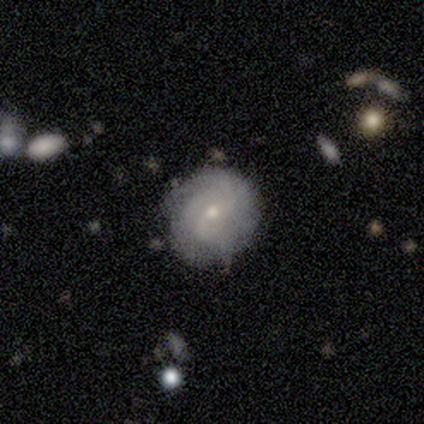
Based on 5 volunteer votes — Smooth or featured?
  - featured or disk: 100% *
  - smooth: 0%
  - star or artifact: 0%
Edge-on disk?
  - no: 100% *
  - yes: 0%
Bar?
  - no: 60% *
  - strong: 20%
  - weak: 20%
Spiral arms?
  - yes: 80% *
  - no: 20%
Spiral winding?
  - tight: 75% *
  - medium: 25%
  - loose: 0%
Spiral arm count?
  - can't tell: 75% *
  - 3: 25%
  - 1: 0%
  - 2: 0%
  - 4: 0%
  - more than 4: 0%
Bulge size?
  - small: 60% *
  - moderate: 40%
  - dominant: 0%
  - large: 0%
  - none: 0%
Merging?
  - none: 100% *
  - minor disturbance: 0%
  - major disturbance: 0%
  - merger: 0%